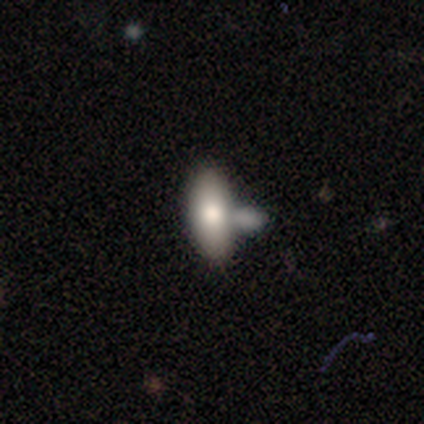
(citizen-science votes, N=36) Smooth or featured? 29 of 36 (81%) said smooth. How rounded? 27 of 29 (93%) said in between. Merging? 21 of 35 (60%) said merger.